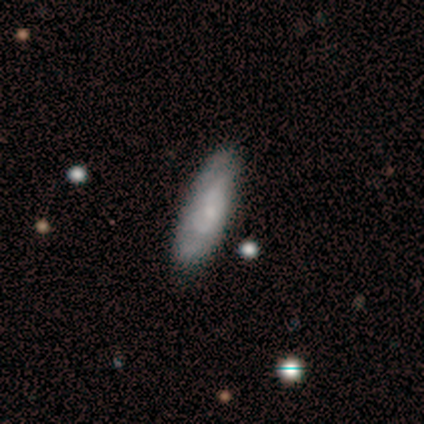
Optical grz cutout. It shows a featured or disk galaxy (100%) viewed edge-on (50%, tied with no) with a boxy central bulge (100%). Merging: none (100%).